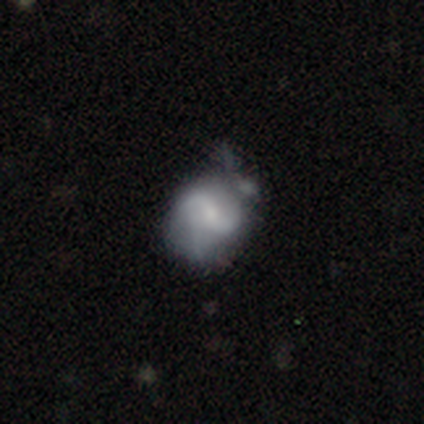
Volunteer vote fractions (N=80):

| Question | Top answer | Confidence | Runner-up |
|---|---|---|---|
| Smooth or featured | featured or disk | 76% | smooth (21%) |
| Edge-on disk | no | 98% | yes (2%) |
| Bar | no | 48% | weak (33%) |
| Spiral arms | yes | 83% | no (17%) |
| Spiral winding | loose | 54% | medium (36%) |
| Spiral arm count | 2 | 66% | 3 (20%) |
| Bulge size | small | 55% | moderate (27%) |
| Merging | minor disturbance | 28% | none (12%) |